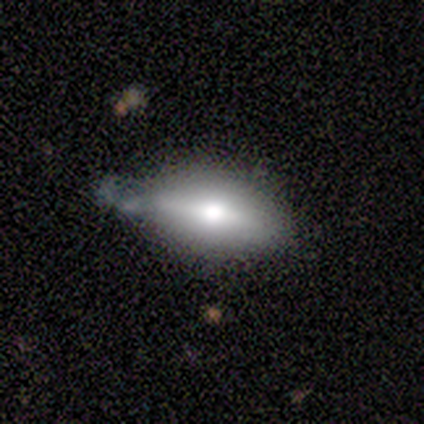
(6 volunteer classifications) Smooth or featured? 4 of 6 (67%) said smooth. How rounded? 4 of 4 (100%) said in between. Merging? 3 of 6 (50%) said none.